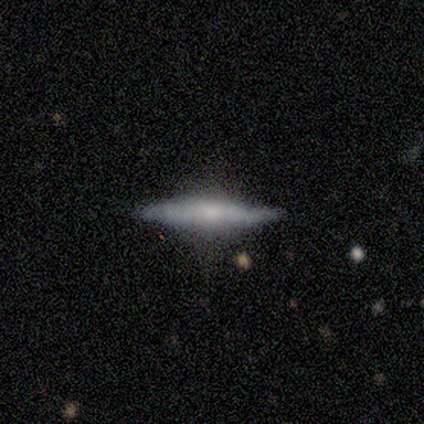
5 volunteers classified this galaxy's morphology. type=featured or disk (100%); edge-on=yes (60%); edge-on bulge=rounded (100%); merging=none (80%).